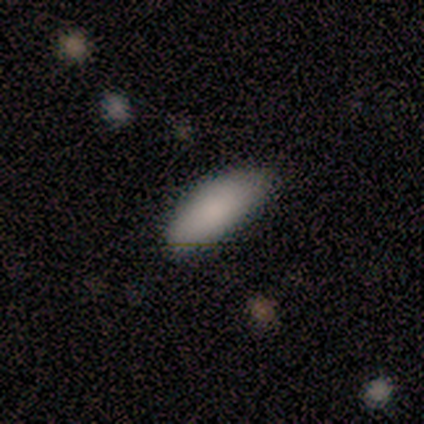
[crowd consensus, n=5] Volunteers were most divided on "how rounded": cigar-shaped: 60%, in between: 40%, round: 0%. More confident: smooth or featured — smooth (100%); merging — none (80%).